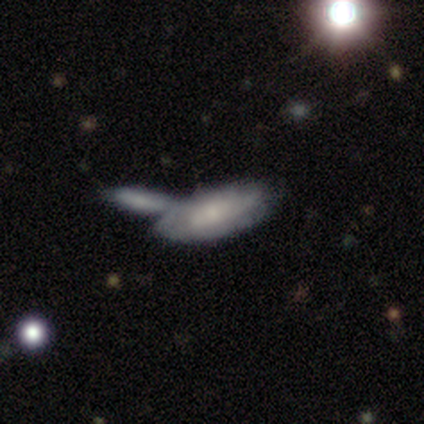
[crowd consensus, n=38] smooth-or-featured: smooth: 50% | featured or disk: 47% | star or artifact: 3%
  how-rounded: in between: 79% | cigar-shaped: 16% | round: 5%
  merging: merger: 57% | none: 27% | minor disturbance: 14% | major disturbance: 3%